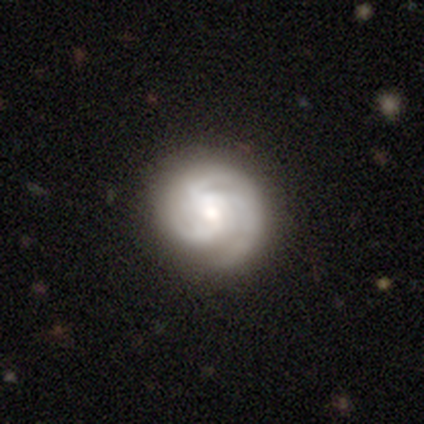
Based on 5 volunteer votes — Smooth or featured? featured or disk (80%)
Edge-on disk? no (100%)
Bar? weak (50%, tied with no)
Spiral arms? yes (100%)
Spiral winding? tight (75%)
Spiral arm count? 3 (100%)
Bulge size? moderate (50%)
Merging? none (100%)